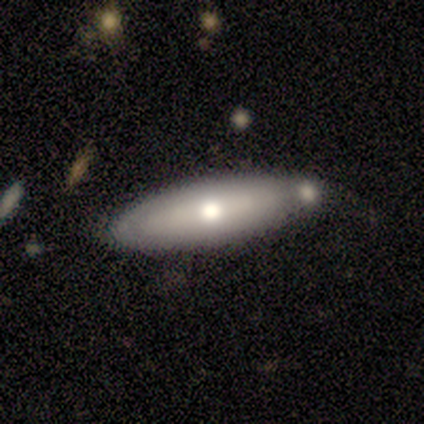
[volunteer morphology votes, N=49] A smooth galaxy with no disk features (55%) that is in between round and cigar-shaped (67%). Merging: none (47%).